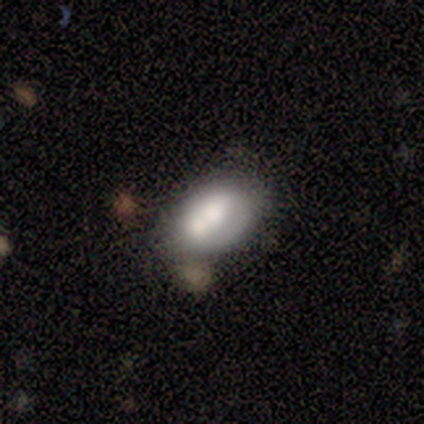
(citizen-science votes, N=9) A smooth galaxy with no disk features (67%) that is in between round and cigar-shaped (83%). Merging: none (33%, tied with minor disturbance and merger).